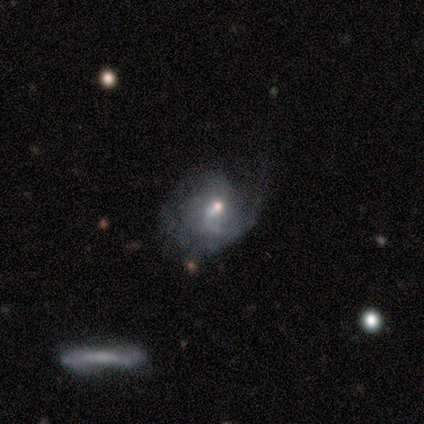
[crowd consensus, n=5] Smooth or featured? featured or disk (60%)
Edge-on disk? no (100%)
Bar? no (67%)
Spiral arms? no (67%)
Bulge size? small (67%)
Merging? major disturbance (75%)